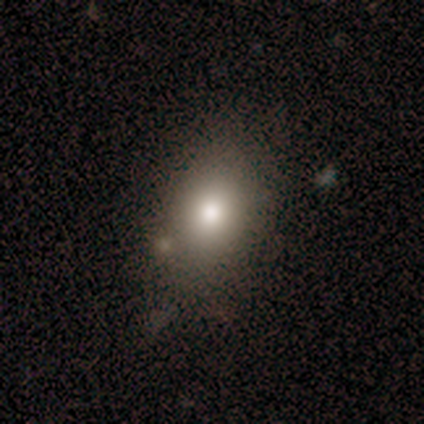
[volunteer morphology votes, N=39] Smooth or featured? 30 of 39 (77%) said smooth. How rounded? 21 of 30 (70%) said in between. Merging? 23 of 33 (70%) said none.